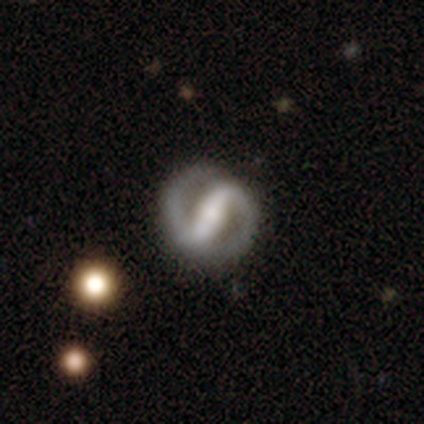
Volunteers were most divided on "bulge size": moderate: 34%, small: 29%, large: 18%, none: 16%, dominant: 3%. More confident: edge-on disk — no (99%); spiral arms — yes (94%); spiral arm count — 2 (93%); smooth or featured — featured or disk (90%); merging — none (87%); bar — strong (85%); spiral winding — medium (55%).